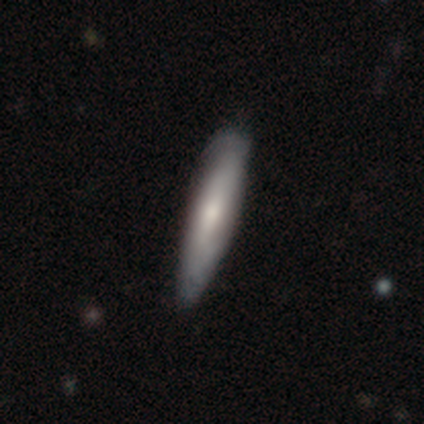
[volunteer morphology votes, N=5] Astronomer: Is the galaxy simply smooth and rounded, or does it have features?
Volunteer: smooth — 80%.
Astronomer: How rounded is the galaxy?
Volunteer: cigar-shaped — 100%.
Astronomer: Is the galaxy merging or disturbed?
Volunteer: none — 100%.